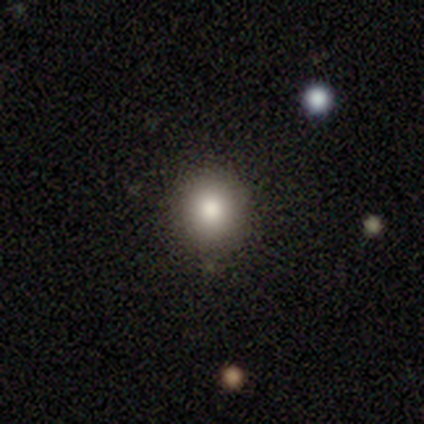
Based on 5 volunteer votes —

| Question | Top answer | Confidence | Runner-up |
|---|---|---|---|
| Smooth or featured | smooth | 100% | — |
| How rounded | round | 80% | in between (20%) |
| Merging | none | 80% | minor disturbance (20%) |